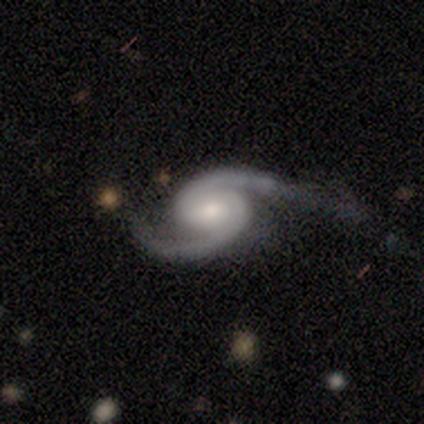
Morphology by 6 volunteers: type=featured or disk (100%); edge-on=no (100%); bar=no (83%); spiral arms=yes (83%); winding=tight (60%); arm count=2 (100%); bulge=small (67%); merging=none (50%, tied with minor disturbance).